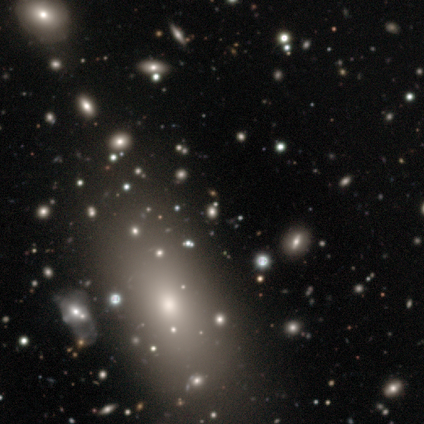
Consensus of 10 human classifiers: This appears to be a smooth galaxy with no disk features (60%) that is in between round and cigar-shaped (67%). Merging: none (43%).